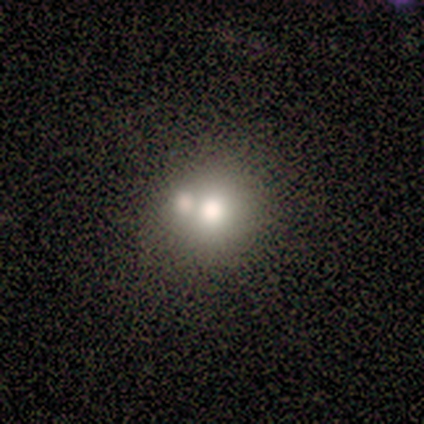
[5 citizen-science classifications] Q: Smooth or featured?
A: smooth (80%); runner-up: featured or disk (20%)
Q: How rounded?
A: round (75%); runner-up: in between (25%)
Q: Merging?
A: none (60%); runner-up: merger (40%)